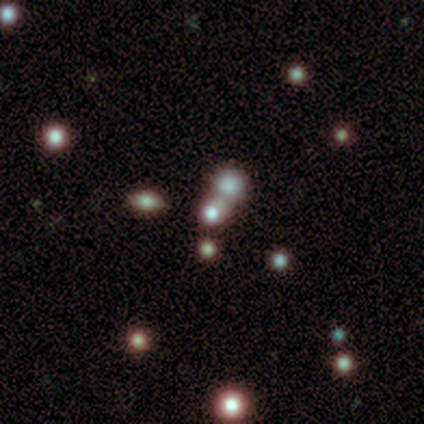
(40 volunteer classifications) Smooth or featured? smooth (45%)
How rounded? round (78%)
Merging? merger (61%)